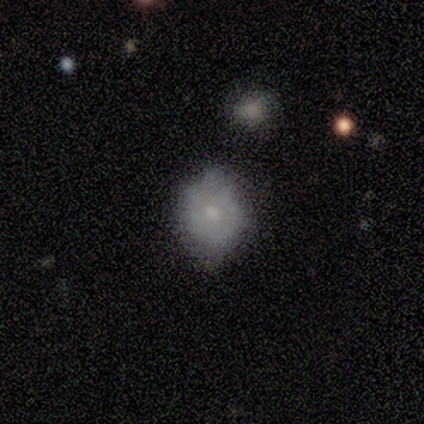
A featured or disk galaxy (80%) with no bar (75%), 2 (50%, tied with can't tell) tight (50%, tied with loose) spiral arms (50%, tied with no) and a small central bulge (75%). Merging: none (60%).